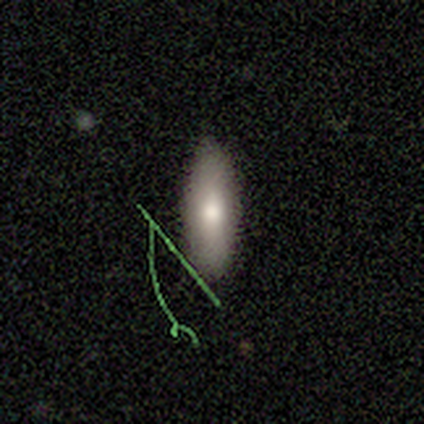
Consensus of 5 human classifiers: A smooth galaxy with no disk features (80%) that is cigar-shaped (75%). Merging: none (80%).